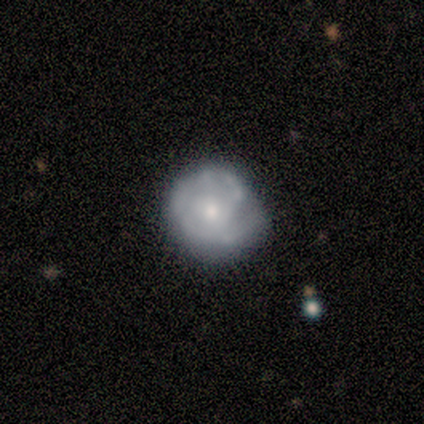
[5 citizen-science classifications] Morphology: type=featured or disk (80%); edge-on=no (100%); bar=weak (50%, tied with no); spiral arms=yes (100%); winding=tight (50%, tied with medium); arm count=1 (25%, tied with 2, 3 and can't tell); bulge=small (75%); merging=none (60%).